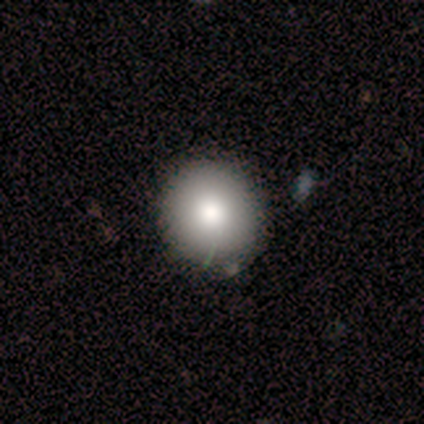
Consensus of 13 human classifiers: This appears to be a smooth galaxy with no disk features (100%) that is round (92%). Merging: none (92%).